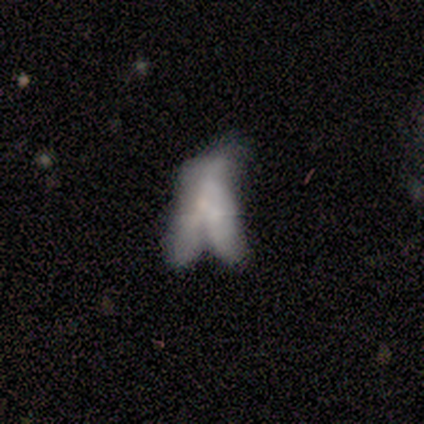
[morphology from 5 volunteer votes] featured or disk 100%, smooth 0%, star or artifact 0%. Down the decision tree: edge-on disk — no (80%); bar — no (100%); spiral arms — no (100%); bulge size — small (75%); merging — major disturbance (60%).